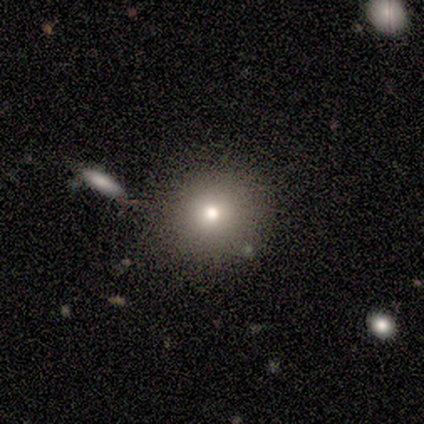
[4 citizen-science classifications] Smooth or featured? smooth (100%)
How rounded? round (75%)
Merging? none (75%)